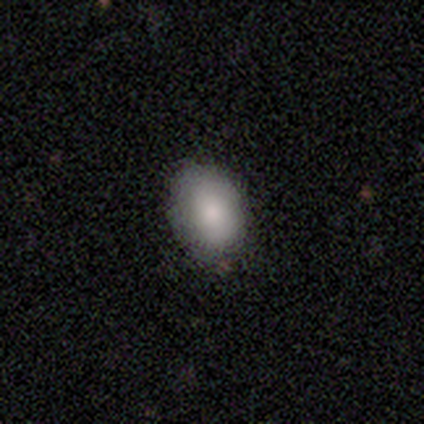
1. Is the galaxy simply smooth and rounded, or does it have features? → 100% smooth, 0% featured or disk, 0% star or artifact.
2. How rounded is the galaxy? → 60% round, 40% in between, 0% cigar-shaped.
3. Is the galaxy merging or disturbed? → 80% none, 20% minor disturbance, 0% major disturbance, 0% merger.